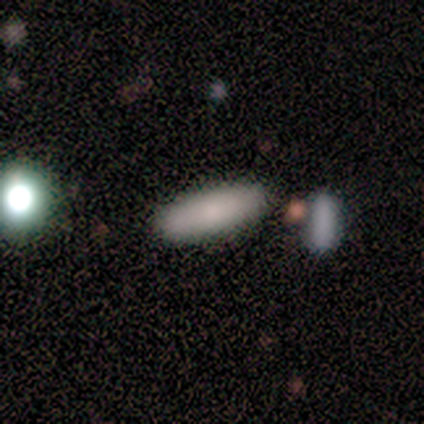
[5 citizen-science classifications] This is clearly a smooth galaxy (80%). How rounded: clearly in between (100%). Merging: likely none (75%).